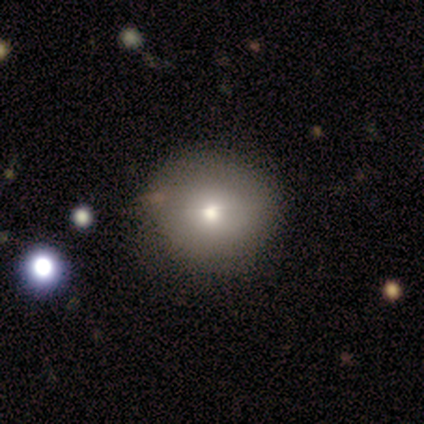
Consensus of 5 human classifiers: Overall: smooth (80%). How rounded: round (100%). Merging: none (80%).